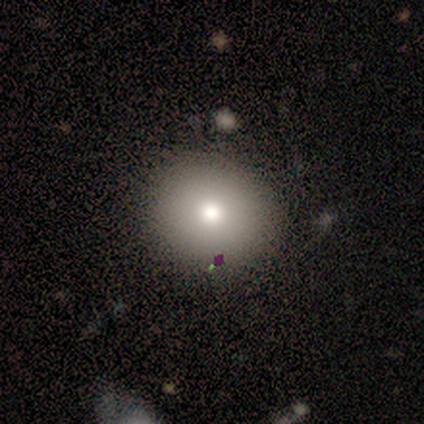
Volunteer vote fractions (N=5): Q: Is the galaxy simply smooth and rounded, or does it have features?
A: smooth — 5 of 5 (100%).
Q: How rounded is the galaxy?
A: round — 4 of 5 (80%).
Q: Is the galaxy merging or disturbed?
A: none — 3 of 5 (60%).